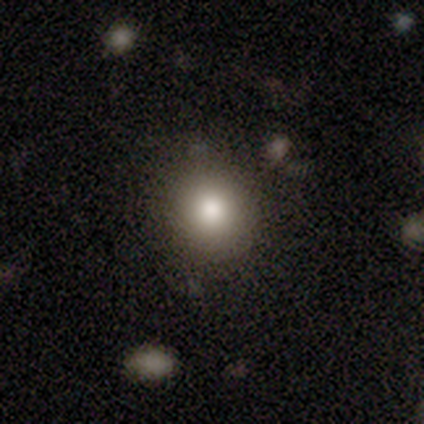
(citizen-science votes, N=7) A smooth galaxy with no disk features (57%) that is round (75%).

Vote fractions:
- Smooth or featured? smooth: 57% / star or artifact: 43% / featured or disk: 0%
- How rounded? round: 75% / in between: 25% / cigar-shaped: 0%
- Merging? none: 50% / minor disturbance: 25% / major disturbance: 25% / merger: 0%